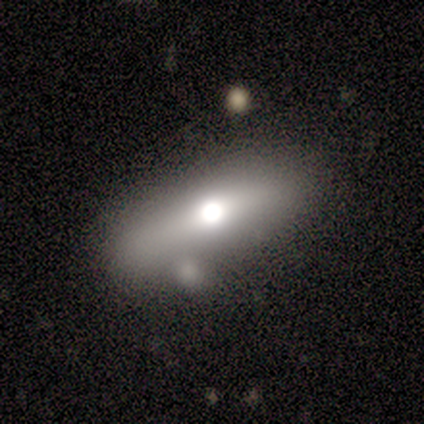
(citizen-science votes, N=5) Smooth or featured? featured or disk (60%)
Edge-on disk? yes (100%)
Edge-on bulge? rounded (100%)
Merging? none (100%)